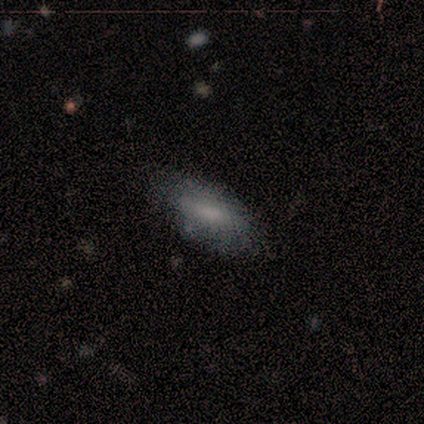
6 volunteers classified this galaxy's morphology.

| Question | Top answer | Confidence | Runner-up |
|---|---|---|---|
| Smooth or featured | smooth | 100% | — |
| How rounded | in between | 83% | cigar-shaped (17%) |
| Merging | none | 100% | — |